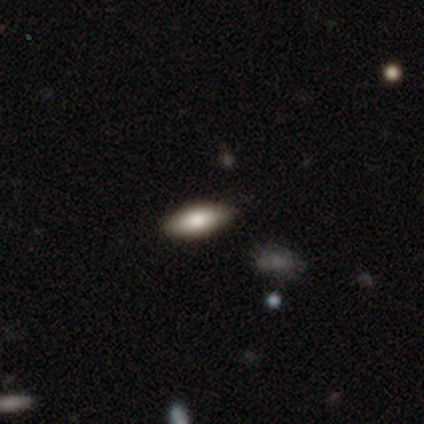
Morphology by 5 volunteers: smooth_or_featured: smooth (p=1.00)
how_rounded: in between (p=0.80) [alt: round p=0.20]
merging: none (p=0.60) [alt: minor disturbance p=0.40]